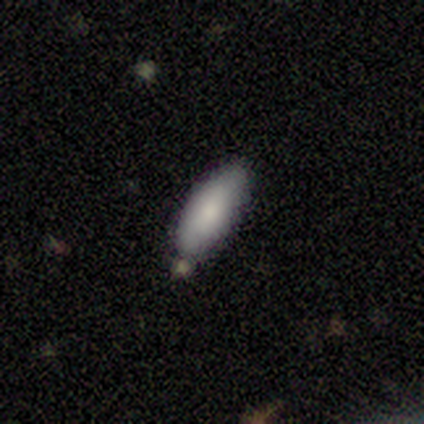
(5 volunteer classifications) This appears to be a smooth galaxy with no disk features (80%) that is cigar-shaped (75%). Merging: none (60%).